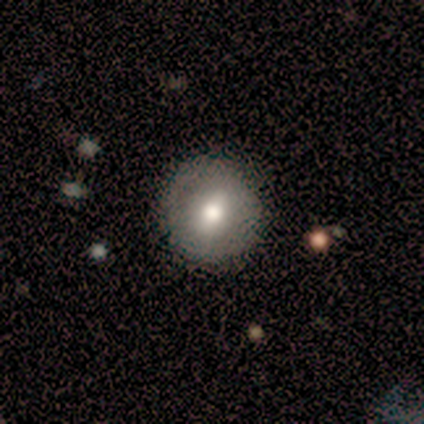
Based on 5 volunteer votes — A smooth galaxy with no disk features (100%) that is round (80%).

Vote fractions:
- Smooth or featured? smooth: 100% / featured or disk: 0% / star or artifact: 0%
- How rounded? round: 80% / in between: 20% / cigar-shaped: 0%
- Merging? none: 80% / minor disturbance: 20% / major disturbance: 0% / merger: 0%